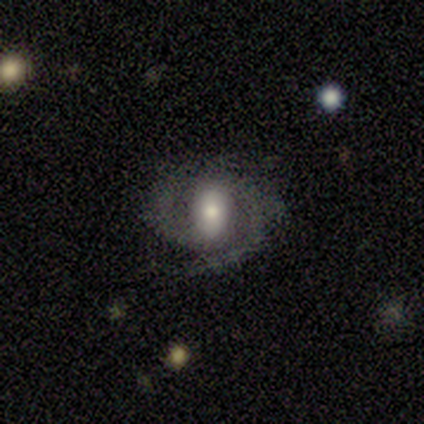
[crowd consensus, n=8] featured or disk 100%, smooth 0%, star or artifact 0%. Down the decision tree: edge-on disk — no (100%); bar — weak (62%); spiral arms — yes (100%); spiral arm count — 2 (88%); spiral winding — medium (62%); bulge size — moderate (50%); merging — none (100%).